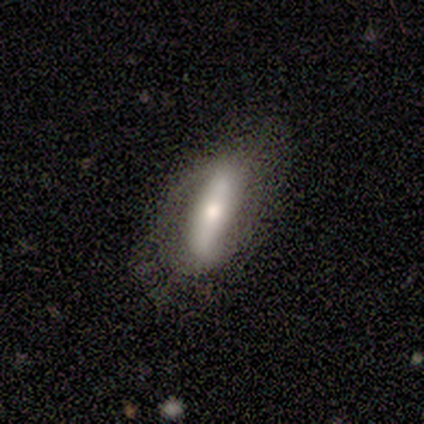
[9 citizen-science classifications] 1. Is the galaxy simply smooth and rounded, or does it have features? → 56% smooth, 44% featured or disk, 0% star or artifact.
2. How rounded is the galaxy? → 60% cigar-shaped, 40% in between, 0% round.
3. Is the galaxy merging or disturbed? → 67% none, 33% minor disturbance, 0% major disturbance, 0% merger.